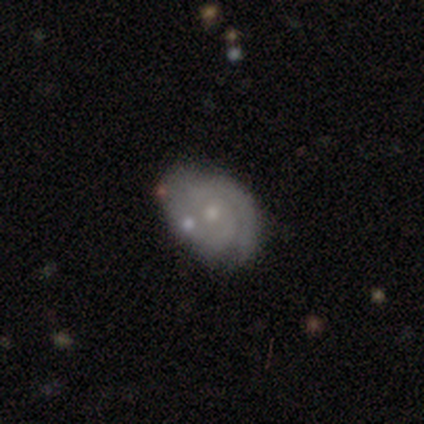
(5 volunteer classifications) This is likely a featured or disk galaxy (60%). It is clearly not viewed edge-on (100%). Bar: likely weak (67%). Spiral arm pattern: likely yes (67%). Spiral arm count: possibly 1 (50%, tied with 2). Spiral winding: clearly tight (100%). Central bulge: clearly small (100%). Merging: marginally none (40%).